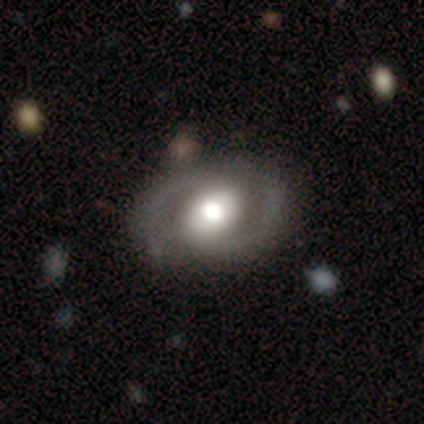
smooth-or-featured: featured or disk: 100% | smooth: 0% | star or artifact: 0%
  disk-edge-on: no: 100% | yes: 0%
    bar: weak: 60% | no: 40% | strong: 0%
    has-spiral-arms: yes: 100% | no: 0%
      spiral-winding: tight: 60% | medium: 20% | loose: 20%
      spiral-arm-count: 2: 80% | 1: 20% | 3: 0% | 4: 0% | more than 4: 0% | can't tell: 0%
    bulge-size: moderate: 100% | dominant: 0% | large: 0% | small: 0% | none: 0%
  merging: none: 100% | minor disturbance: 0% | major disturbance: 0% | merger: 0%